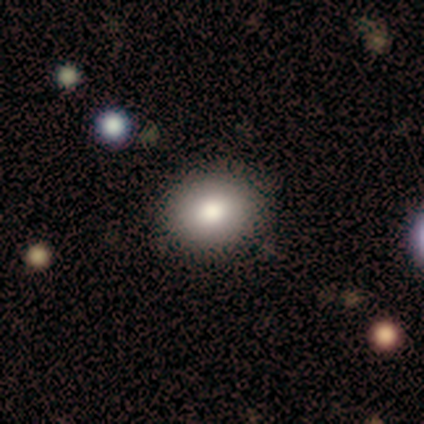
This appears to be a smooth galaxy with no disk features (78%) that is in between round and cigar-shaped (59%). Merging: none (90%).